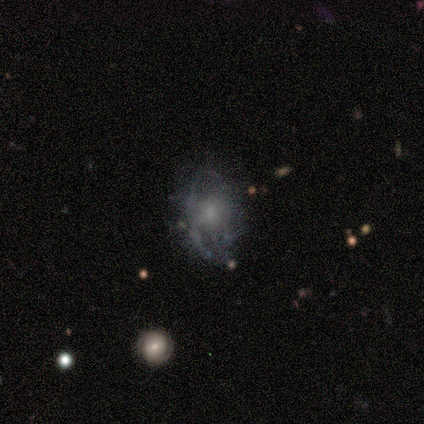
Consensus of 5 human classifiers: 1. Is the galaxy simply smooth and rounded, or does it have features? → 80% featured or disk, 20% star or artifact, 0% smooth.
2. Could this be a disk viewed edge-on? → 100% no, 0% yes.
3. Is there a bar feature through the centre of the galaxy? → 100% no, 0% strong, 0% weak.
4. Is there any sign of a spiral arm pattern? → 75% no, 25% yes.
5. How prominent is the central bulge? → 50% small (tied), 50% none (tied), 0% dominant, 0% large, 0% moderate.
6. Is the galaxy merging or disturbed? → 50% none, 25% minor disturbance, 25% major disturbance, 0% merger.